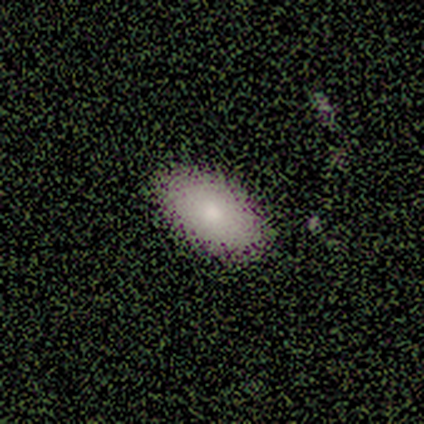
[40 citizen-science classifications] This is likely a smooth galaxy (72%). How rounded: clearly in between (97%). Merging: likely none (73%).